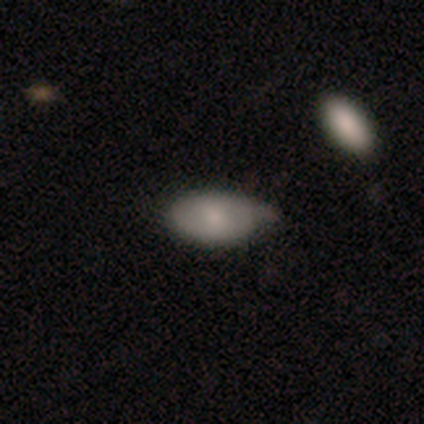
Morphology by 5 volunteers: smooth-or-featured: smooth: 100% | featured or disk: 0% | star or artifact: 0%
  how-rounded: in between: 80% | round: 20% | cigar-shaped: 0%
  merging: none: 40% (tied) | minor disturbance: 40% (tied) | merger: 20% | major disturbance: 0%